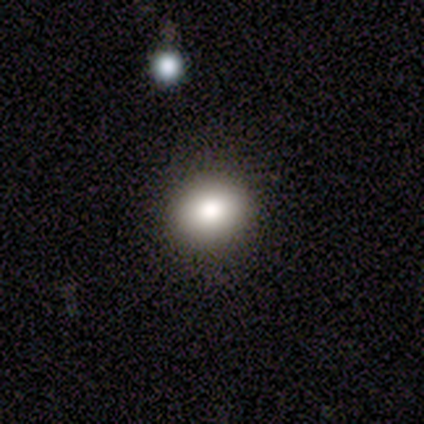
Q: Smooth or featured?
A: smooth (80%); runner-up: star or artifact (20%)
Q: How rounded?
A: round (50%); tied with: in between (50%)
Q: Merging?
A: none (100%)